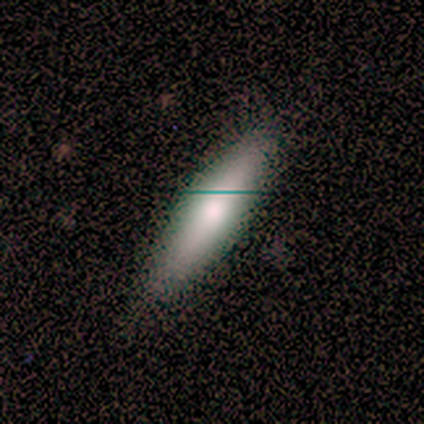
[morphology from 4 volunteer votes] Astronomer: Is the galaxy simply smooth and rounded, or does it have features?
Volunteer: smooth — 75%.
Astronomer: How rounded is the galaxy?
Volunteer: cigar-shaped — 100%.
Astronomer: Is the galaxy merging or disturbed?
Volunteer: none — 100%.